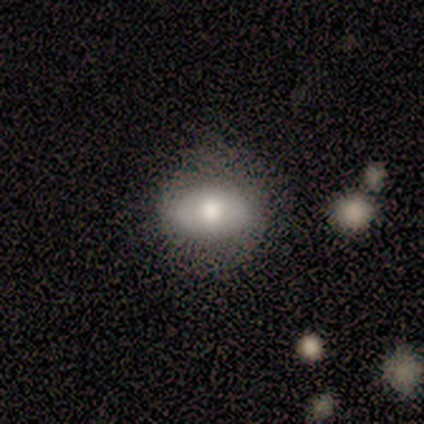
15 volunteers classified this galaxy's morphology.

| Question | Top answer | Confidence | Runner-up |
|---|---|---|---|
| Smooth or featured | smooth | 73% | featured or disk (20%) |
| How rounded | in between | 82% | round (18%) |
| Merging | none | 86% | minor disturbance (7%) |